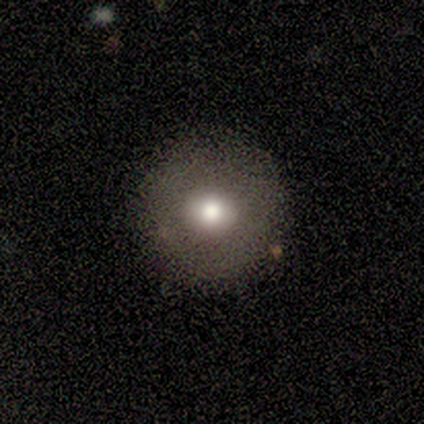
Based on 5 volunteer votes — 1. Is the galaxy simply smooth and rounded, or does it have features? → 40% smooth (tied), 40% featured or disk (tied), 20% star or artifact.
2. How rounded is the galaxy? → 100% round, 0% in between, 0% cigar-shaped.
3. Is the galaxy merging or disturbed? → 100% none, 0% minor disturbance, 0% major disturbance, 0% merger.